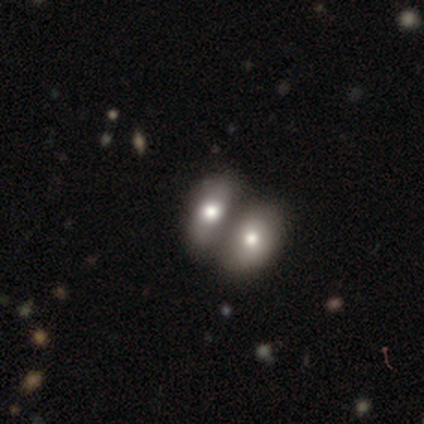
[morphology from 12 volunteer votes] Smooth or featured? smooth (67%)
How rounded? in between (88%)
Merging? merger (67%)